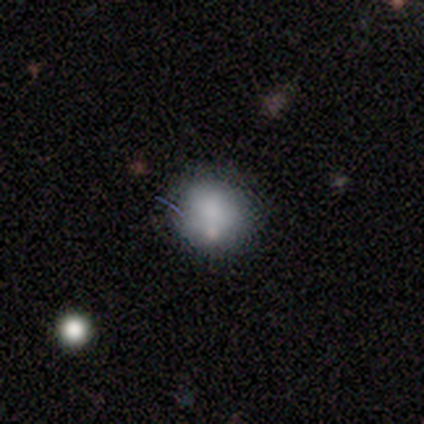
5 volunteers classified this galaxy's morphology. A smooth galaxy with no disk features (80%) that is round (100%). Merging: none (80%).